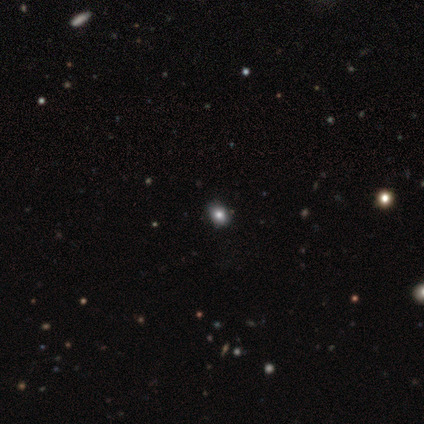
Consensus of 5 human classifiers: Morphology: type=smooth (80%); roundness=round (75%); merging=none (100%).